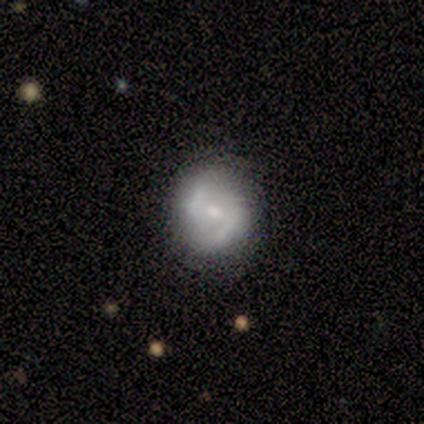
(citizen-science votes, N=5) smooth-or-featured: featured or disk: 80% | star or artifact: 20% | smooth: 0%
  disk-edge-on: no: 100% | yes: 0%
    bar: weak: 50% (tied) | no: 50% (tied) | strong: 0%
    has-spiral-arms: yes: 75% | no: 25%
      spiral-winding: loose: 67% | medium: 33% | tight: 0%
      spiral-arm-count: 2: 100% | 1: 0% | 3: 0% | 4: 0% | more than 4: 0% | can't tell: 0%
    bulge-size: moderate: 50% | dominant: 25% | small: 25% | large: 0% | none: 0%
  merging: none: 50% (tied) | minor disturbance: 50% (tied) | major disturbance: 0% | merger: 0%